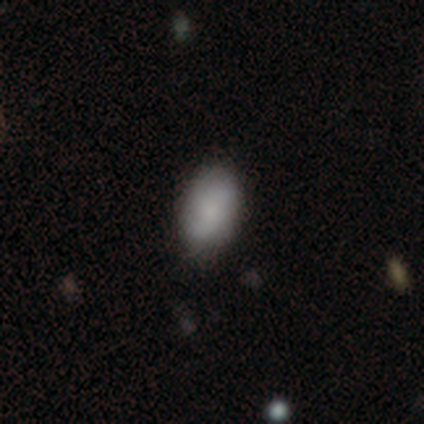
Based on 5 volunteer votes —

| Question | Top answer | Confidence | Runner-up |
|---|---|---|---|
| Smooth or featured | smooth | 80% | featured or disk (20%) |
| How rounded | in between | 100% | — |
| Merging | none | 80% | minor disturbance (20%) |